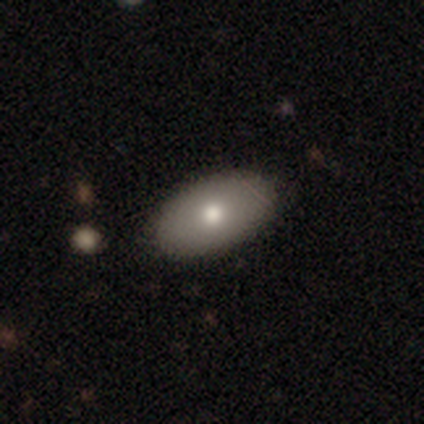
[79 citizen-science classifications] This appears to be a smooth galaxy with no disk features (84%) that is in between round and cigar-shaped (95%). Merging: none (45%).